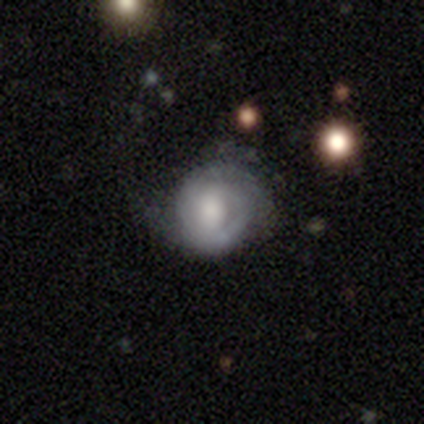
smooth_or_featured: featured or disk (p=0.53) [alt: smooth p=0.42]
disk_edge_on: no (p=1.00)
bar: no (p=0.60) [alt: strong p=0.20]
has_spiral_arms: yes (p=0.75) [alt: no p=0.25]
spiral_winding: tight (p=0.80) [alt: medium p=0.13]
spiral_arm_count: can't tell (p=0.47) [alt: 2 p=0.27]
bulge_size: large (p=0.40) [alt: dominant p=0.20]
merging: minor disturbance (p=0.50) [alt: none p=0.36]